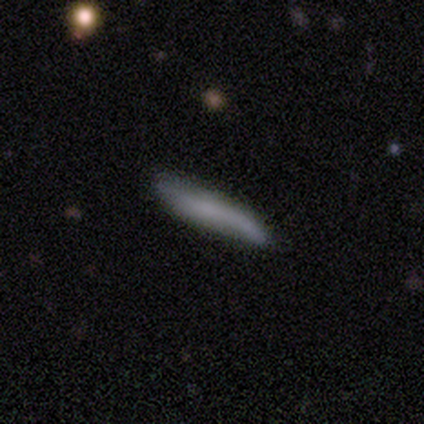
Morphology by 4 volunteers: smooth-or-featured: smooth: 75% | featured or disk: 25% | star or artifact: 0%
  how-rounded: cigar-shaped: 100% | round: 0% | in between: 0%
  merging: none: 75% | major disturbance: 25% | minor disturbance: 0% | merger: 0%